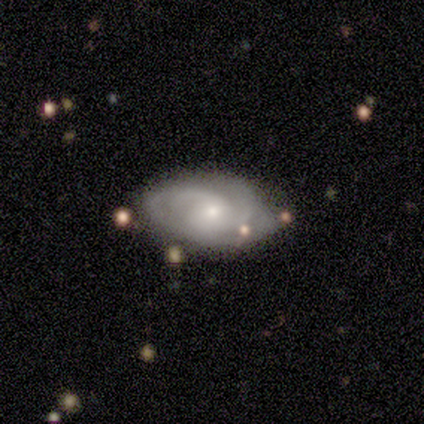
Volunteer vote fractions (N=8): smooth_or_featured: featured or disk (p=0.75) [alt: smooth p=0.25]
disk_edge_on: no (p=1.00)
bar: no (p=1.00)
has_spiral_arms: yes (p=1.00)
spiral_winding: tight (p=0.50) [alt: loose p=0.33]
spiral_arm_count: 3 (p=0.50) [alt: 2 p=0.33]
bulge_size: moderate (p=0.50) [tied with: small p=0.50]
merging: none (p=0.75) [alt: minor disturbance p=0.25]